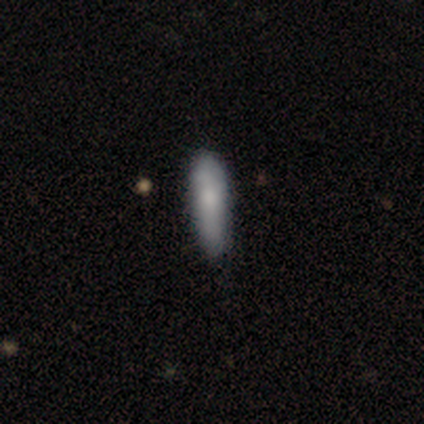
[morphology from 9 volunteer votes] smooth_or_featured: smooth (p=0.89) [alt: star or artifact p=0.11]
how_rounded: cigar-shaped (p=0.88) [alt: in between p=0.12]
merging: none (p=0.88) [alt: minor disturbance p=0.12]